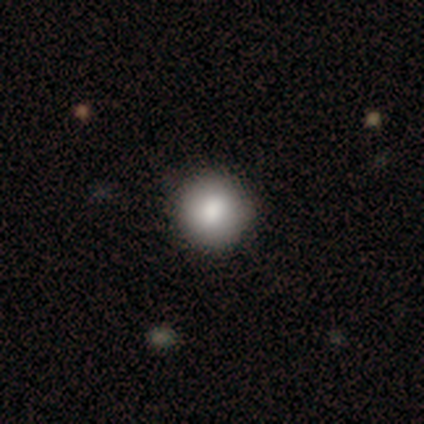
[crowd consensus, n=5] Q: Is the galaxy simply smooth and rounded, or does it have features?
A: smooth — 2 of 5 (40%, tied with featured or disk).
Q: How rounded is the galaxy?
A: round — 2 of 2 (100%).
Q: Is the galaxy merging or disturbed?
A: none — 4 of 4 (100%).